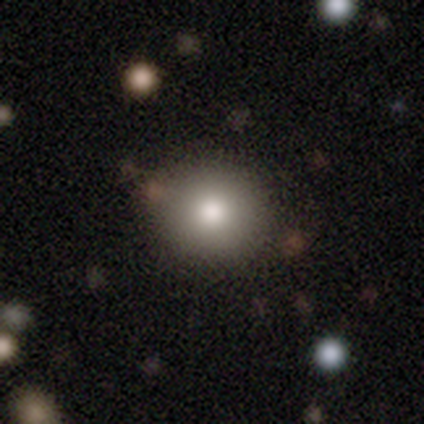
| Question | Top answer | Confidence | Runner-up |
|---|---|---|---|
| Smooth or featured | smooth | 88% | star or artifact (12%) |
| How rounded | round | 100% | — |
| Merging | none | 100% | — |